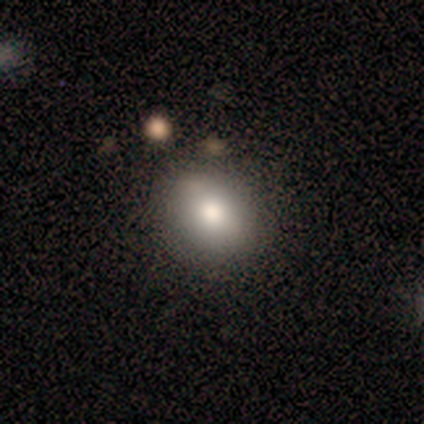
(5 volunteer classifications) Q: Smooth or featured?
A: smooth (100%)
Q: How rounded?
A: in between (60%); runner-up: round (40%)
Q: Merging?
A: none (100%)